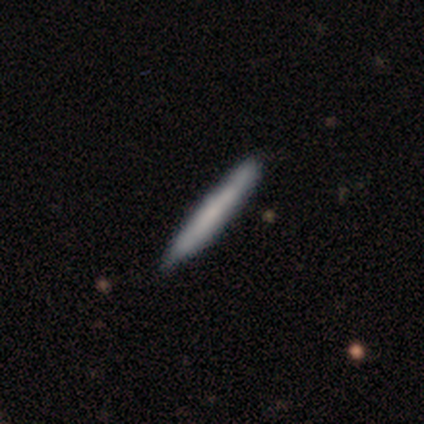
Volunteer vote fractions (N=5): This appears to be a smooth galaxy with no disk features (80%) that is cigar-shaped (100%). Merging: none (80%).